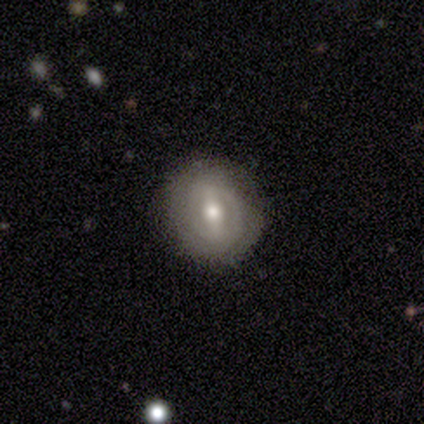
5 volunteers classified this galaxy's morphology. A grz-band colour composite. It shows a featured or disk galaxy (80%) with a strong bar (75%), 1 (50%, tied with can't tell) tight (50%, tied with medium) spiral arms (50%, tied with no) and a moderate central bulge (100%). Merging: none (80%).